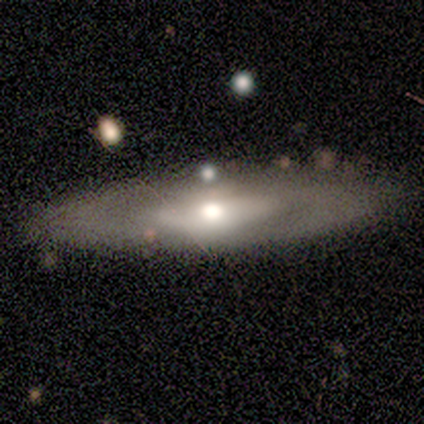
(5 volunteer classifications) Smooth or featured? 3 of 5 (60%) said smooth. How rounded? 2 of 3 (67%) said in between. Merging? 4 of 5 (80%) said none.